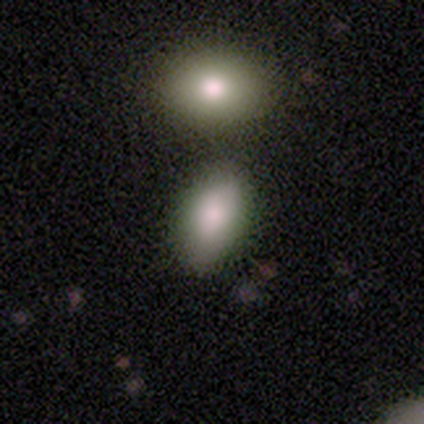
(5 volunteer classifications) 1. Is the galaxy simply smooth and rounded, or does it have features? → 60% smooth, 20% featured or disk, 20% star or artifact.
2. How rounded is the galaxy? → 100% in between, 0% round, 0% cigar-shaped.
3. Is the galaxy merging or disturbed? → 50% none (tied), 50% merger (tied), 0% minor disturbance, 0% major disturbance.